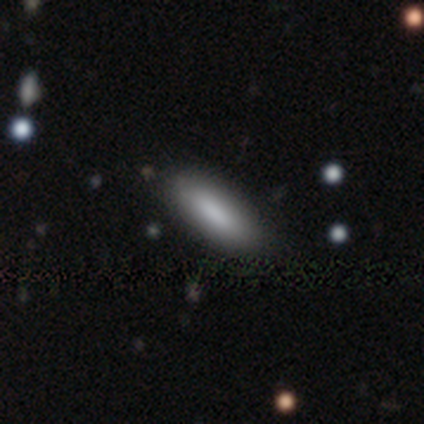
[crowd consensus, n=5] This appears to be a smooth galaxy with no disk features (80%) that is in between round and cigar-shaped (100%). Merging: none (75%).